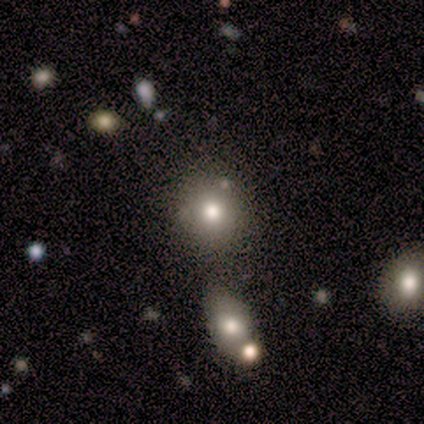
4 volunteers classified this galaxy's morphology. Volunteers were most divided on "smooth or featured": smooth: 50%, featured or disk: 25%, star or artifact: 25%. More confident: how rounded — round (100%); merging — none (100%).